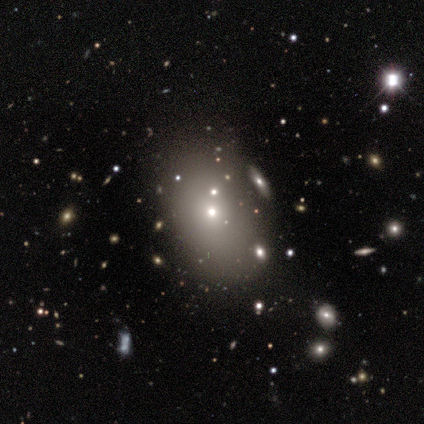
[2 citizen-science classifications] Smooth or featured? 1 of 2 (50%, tied with star or artifact) said smooth. How rounded? 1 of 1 (100%) said in between. Merging? 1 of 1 (100%) said none.